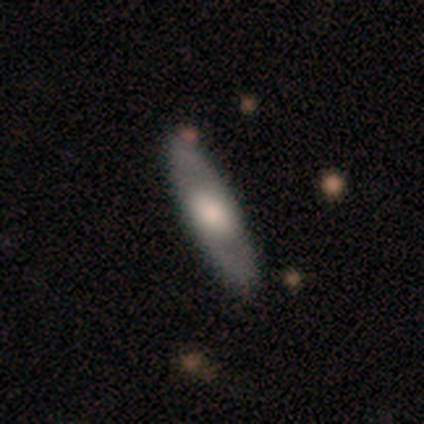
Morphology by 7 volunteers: Smooth or featured? 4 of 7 (57%) said smooth. How rounded? 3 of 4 (75%) said in between. Merging? 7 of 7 (100%) said none.